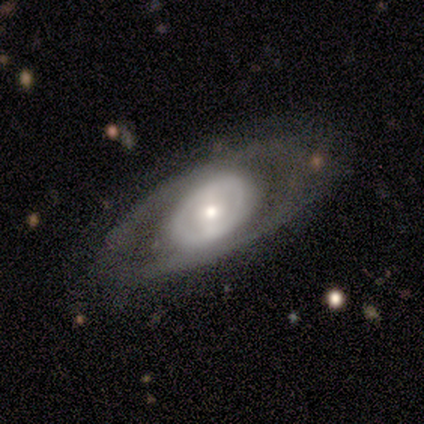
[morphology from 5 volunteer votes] Smooth or featured: featured or disk — 80% (smooth — 20%)
Edge-on disk: no — 100%
Bar: weak — 50% (strong — 25%)
Spiral arms: no — 75% (yes — 25%)
Bulge size: moderate — 50% (large — 25%)
Merging: none — 40% (tied with minor disturbance — 40%)